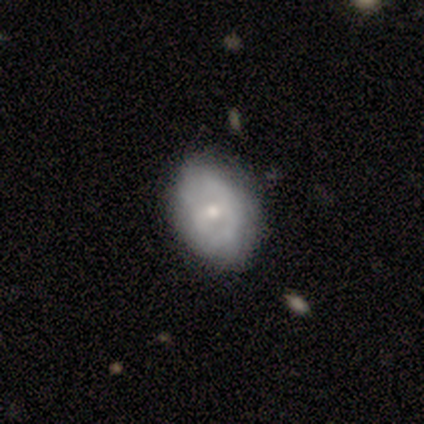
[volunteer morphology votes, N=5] Volunteers were most divided on "spiral arm count" (3-way tie): 1: 33%, 3: 33%, can't tell: 33%, 2: 0%, 4: 0%, more than 4: 0%. More confident: edge-on disk — no (100%); bar — no (100%); spiral arms — yes (100%); merging — none (80%); spiral winding — tight (67%); bulge size — small (67%); smooth or featured — featured or disk (60%).